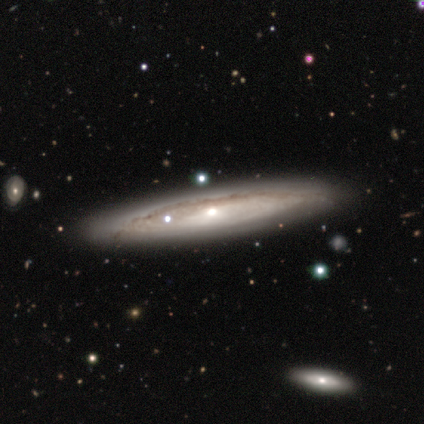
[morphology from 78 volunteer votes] smooth_or_featured: featured or disk (p=0.76) [alt: smooth p=0.14]
disk_edge_on: yes (p=0.63) [alt: no p=0.37]
edge_on_bulge: rounded (p=0.65) [alt: none p=0.27]
merging: none (p=0.44) [alt: minor disturbance p=0.06]